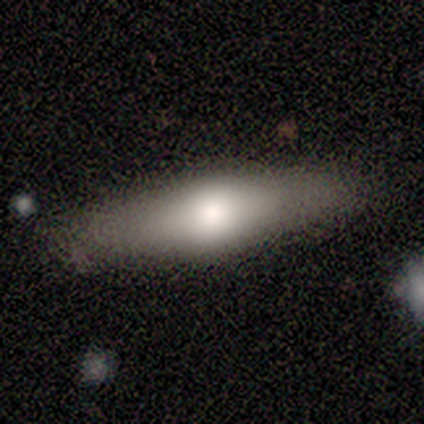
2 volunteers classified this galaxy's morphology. A smooth galaxy with no disk features (50%, tied with featured or disk) that is cigar-shaped (100%). Merging: none (100%).